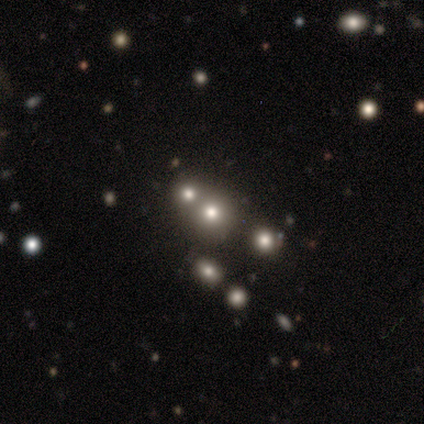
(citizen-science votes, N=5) Smooth or featured: star or artifact — 60% (smooth — 40%)